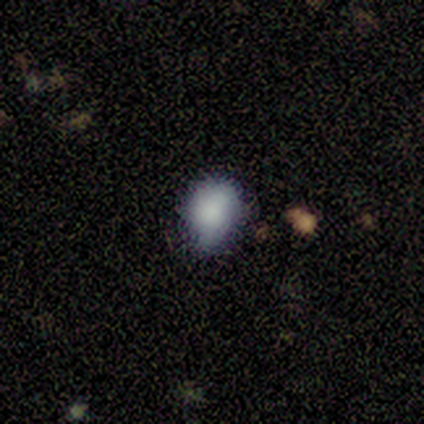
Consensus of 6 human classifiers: Smooth or featured? 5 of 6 (83%) said smooth. How rounded? 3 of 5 (60%) said round. Merging? 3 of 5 (60%) said none.